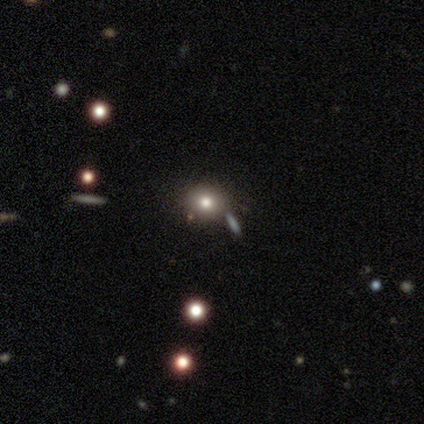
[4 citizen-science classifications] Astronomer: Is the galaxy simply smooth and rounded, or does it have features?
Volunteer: smooth — 50%, tied with star or artifact at 50%.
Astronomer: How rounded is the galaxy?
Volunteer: round — 100%.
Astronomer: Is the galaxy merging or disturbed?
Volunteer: none — 100%.